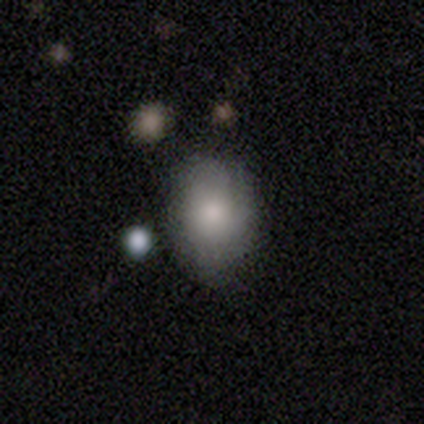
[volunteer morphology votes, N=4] smooth_or_featured: smooth (p=0.50) [tied with: featured or disk p=0.50]
how_rounded: round (p=0.50) [tied with: in between p=0.50]
merging: none (p=0.75) [alt: merger p=0.25]